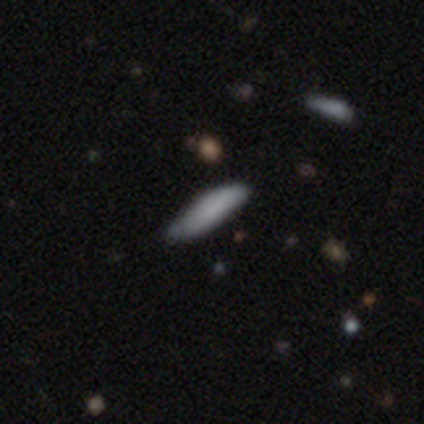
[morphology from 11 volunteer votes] Q: Smooth or featured?
A: smooth (91%); runner-up: featured or disk (9%)
Q: How rounded?
A: cigar-shaped (90%); runner-up: in between (10%)
Q: Merging?
A: none (64%); runner-up: minor disturbance (36%)